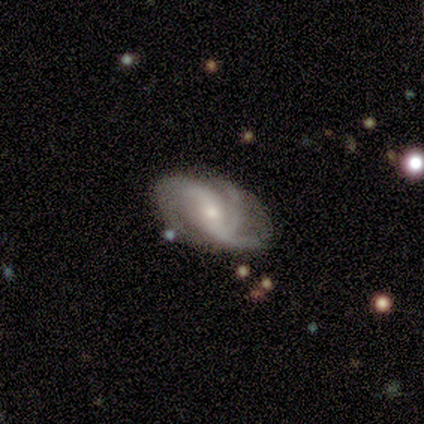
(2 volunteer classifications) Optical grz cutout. It shows a featured or disk galaxy (100%) with a weak bar (100%), 2 (100%) loose (100%) spiral arms (100%) and a moderate central bulge (100%). Merging: none (50%, tied with minor disturbance).